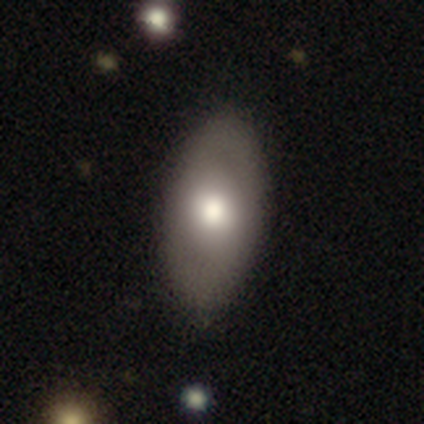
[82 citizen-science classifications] Smooth or featured: smooth — 65% (featured or disk — 33%)
How rounded: in between — 92% (round — 4%)
Merging: none — 82% (minor disturbance — 14%)